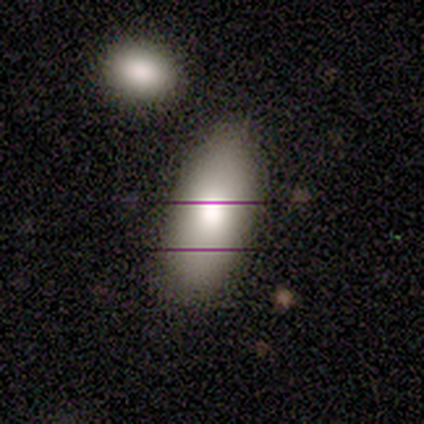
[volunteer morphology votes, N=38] smooth_or_featured: smooth (p=0.82) [alt: featured or disk p=0.11]
how_rounded: in between (p=0.87) [alt: cigar-shaped p=0.13]
merging: none (p=0.69) [alt: minor disturbance p=0.23]